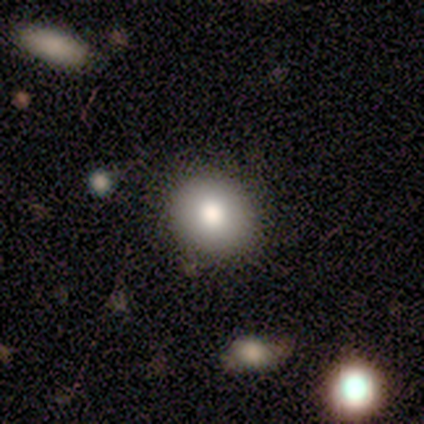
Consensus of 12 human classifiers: Morphology: type=smooth (83%); roundness=round (80%); merging=none (90%).